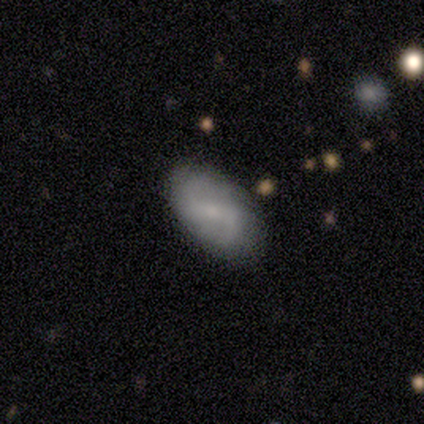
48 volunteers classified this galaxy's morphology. featured or disk 65%, smooth 31%, star or artifact 4%. Down the decision tree: edge-on disk — no (97%); bar — weak (63%); spiral arms — yes (93%); spiral arm count — 2 (93%); spiral winding — medium (46%); bulge size — small (57%); merging — none (80%).